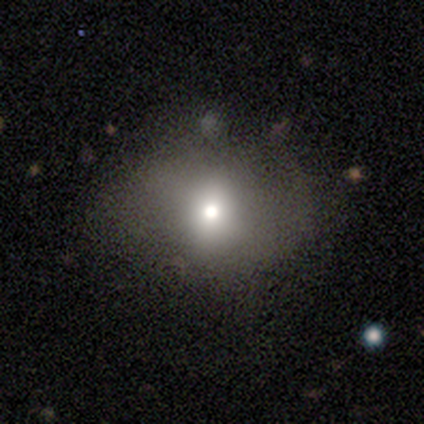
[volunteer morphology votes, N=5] Smooth or featured: smooth — 60% (star or artifact — 40%)
How rounded: round — 67% (in between — 33%)
Merging: minor disturbance — 67% (none — 33%)